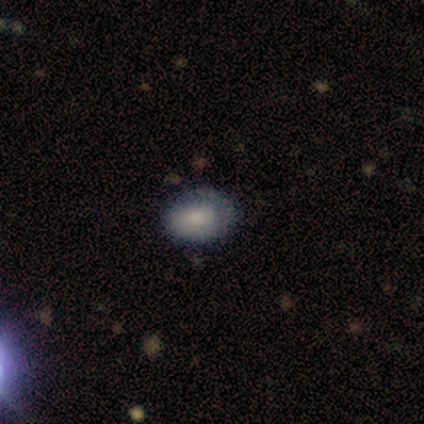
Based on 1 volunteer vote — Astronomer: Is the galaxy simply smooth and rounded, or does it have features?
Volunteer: smooth — 100%.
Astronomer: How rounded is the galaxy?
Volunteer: in between — 100%.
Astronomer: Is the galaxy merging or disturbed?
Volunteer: minor disturbance — 100%.